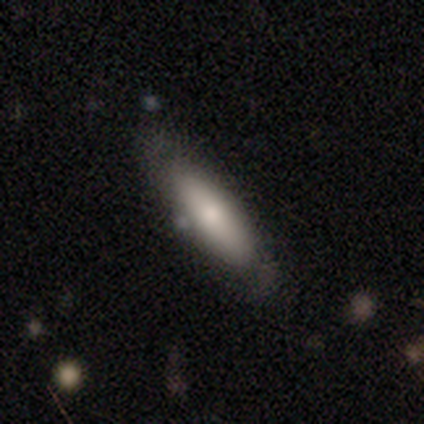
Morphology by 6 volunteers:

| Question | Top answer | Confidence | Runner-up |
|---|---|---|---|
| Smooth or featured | smooth | 100% | — |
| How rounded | in between | 67% | cigar-shaped (33%) |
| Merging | none | 83% | minor disturbance (17%) |